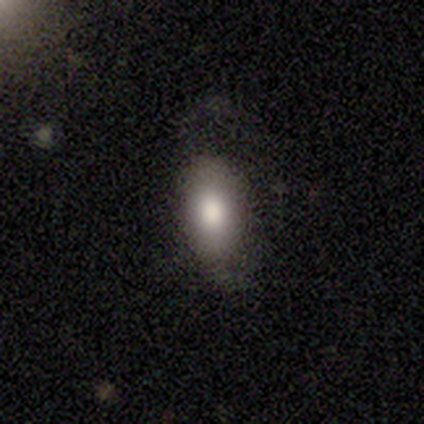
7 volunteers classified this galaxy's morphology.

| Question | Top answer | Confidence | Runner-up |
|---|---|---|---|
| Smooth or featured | smooth | 71% | featured or disk (29%) |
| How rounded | in between | 100% | — |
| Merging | none | 57% | major disturbance (29%) |